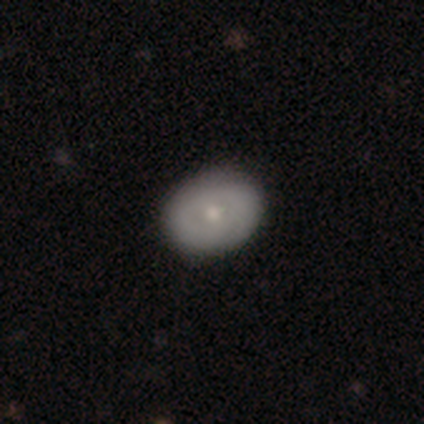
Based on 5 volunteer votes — Smooth or featured? featured or disk (80%)
Edge-on disk? no (100%)
Bar? no (100%)
Spiral arms? no (75%)
Bulge size? moderate (50%, tied with small)
Merging? none (80%)